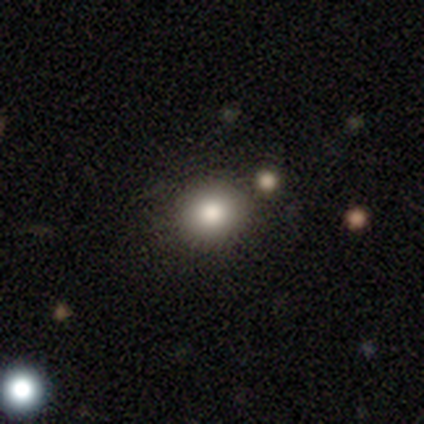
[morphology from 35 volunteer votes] Smooth or featured? 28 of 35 (80%) said smooth. How rounded? 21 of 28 (75%) said round. Merging? 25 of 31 (81%) said none.